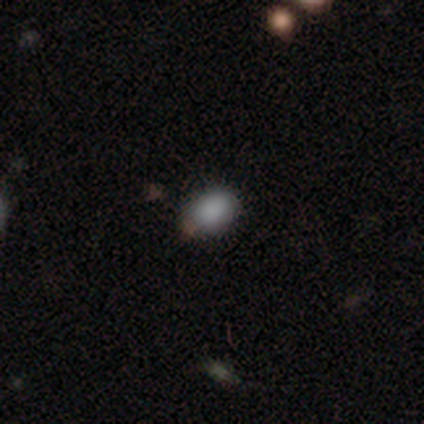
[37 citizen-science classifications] This is clearly a smooth galaxy (89%). How rounded: likely in between (79%). Merging: clearly none (82%).